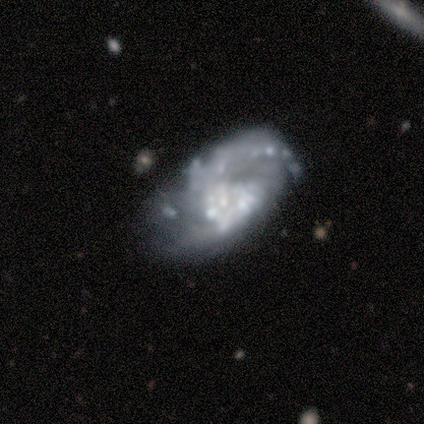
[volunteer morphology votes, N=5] Smooth or featured?
  - featured or disk: 80% *
  - smooth: 20%
  - star or artifact: 0%
Edge-on disk?
  - no: 100% *
  - yes: 0%
Bar?
  - no: 100% *
  - strong: 0%
  - weak: 0%
Spiral arms?
  - yes: 75% *
  - no: 25%
Spiral winding?
  - loose: 67% *
  - tight: 33%
  - medium: 0%
Spiral arm count?
  - can't tell: 67% *
  - 2: 33%
  - 1: 0%
  - 3: 0%
  - 4: 0%
  - more than 4: 0%
Bulge size?
  - small: 50% *
  - moderate: 25%
  - none: 25%
  - dominant: 0%
  - large: 0%
Merging?
  - none: 40% * (tied)
  - merger: 40% * (tied)
  - major disturbance: 20%
  - minor disturbance: 0%